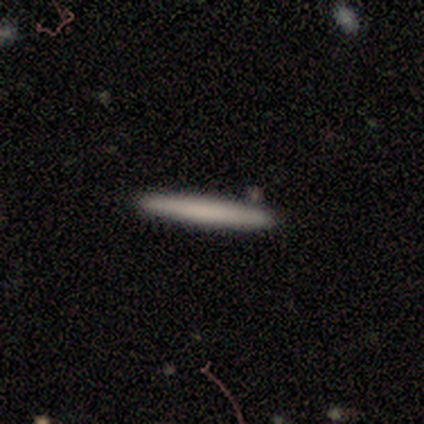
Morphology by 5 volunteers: smooth-or-featured: smooth: 80% | featured or disk: 20% | star or artifact: 0%
  how-rounded: cigar-shaped: 100% | round: 0% | in between: 0%
  merging: none: 80% | minor disturbance: 20% | major disturbance: 0% | merger: 0%